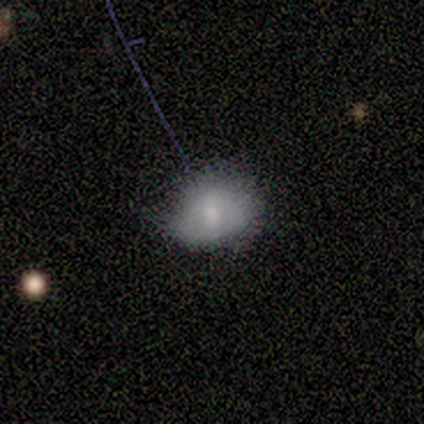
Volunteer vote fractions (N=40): A smooth galaxy with no disk features (62%) that is in between round and cigar-shaped (60%). Merging: none (62%).